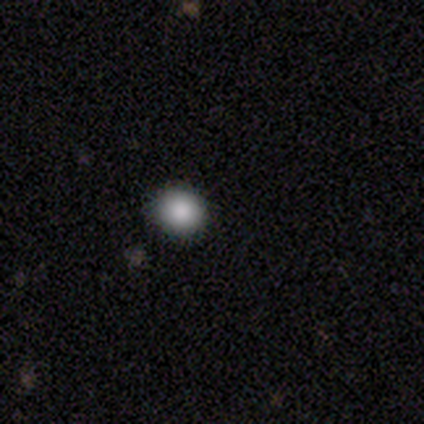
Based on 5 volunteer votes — A smooth galaxy with no disk features (80%) that is round (100%). Merging: none (100%).